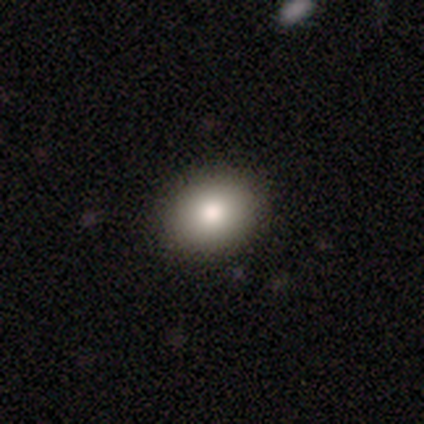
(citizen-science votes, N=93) Volunteers were most divided on "how rounded": in between: 56%, round: 44%, cigar-shaped: 0%. More confident: merging — none (95%); smooth or featured — smooth (83%).